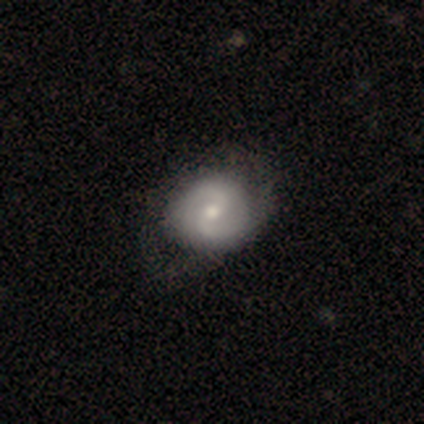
smooth-or-featured: featured or disk: 70% | smooth: 25% | star or artifact: 4%
  disk-edge-on: no: 96% | yes: 4%
    bar: weak: 47% | no: 38% | strong: 16%
    has-spiral-arms: yes: 93% | no: 7%
      spiral-winding: medium: 45% | tight: 36% | loose: 19%
      spiral-arm-count: 2: 88% | can't tell: 12% | 1: 0% | 3: 0% | 4: 0% | more than 4: 0%
    bulge-size: moderate: 62% | small: 31% | large: 4% | none: 2% | dominant: 0%
  merging: none: 55% | minor disturbance: 23% | major disturbance: 19% | merger: 3%